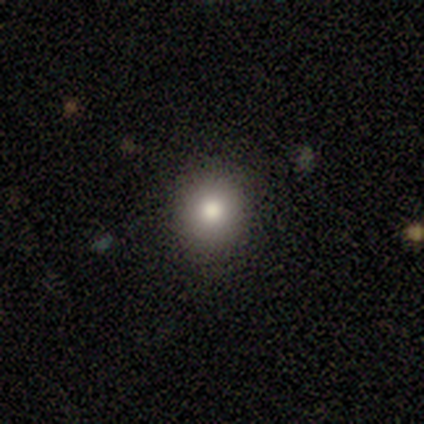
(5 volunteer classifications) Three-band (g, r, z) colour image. It shows a smooth galaxy with no disk features (60%) that is round (67%). Merging: minor disturbance (67%).